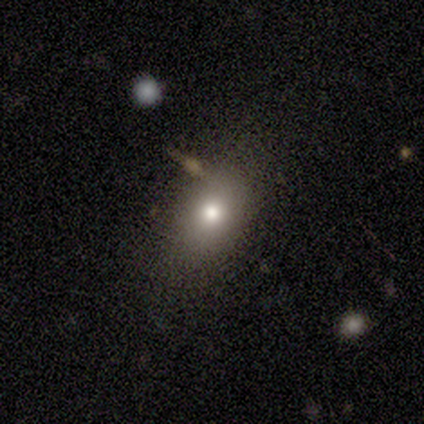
Morphology: type=smooth (100%); roundness=in between (80%); merging=none (80%).